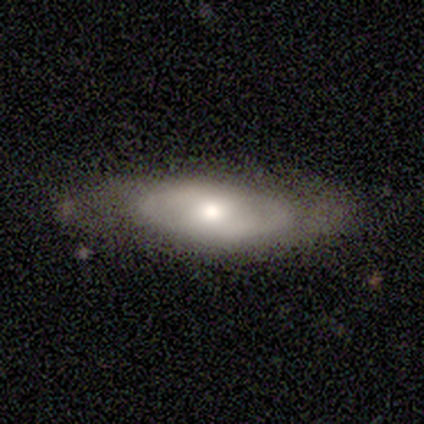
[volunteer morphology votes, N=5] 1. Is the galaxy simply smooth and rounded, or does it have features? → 80% smooth, 20% featured or disk, 0% star or artifact.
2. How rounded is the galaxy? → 75% in between, 25% cigar-shaped, 0% round.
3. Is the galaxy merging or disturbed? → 100% none, 0% minor disturbance, 0% major disturbance, 0% merger.